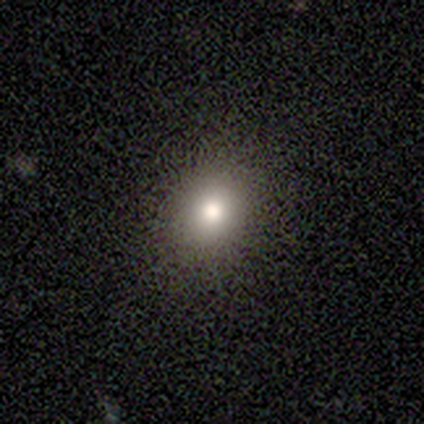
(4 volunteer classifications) Smooth or featured?
  - smooth: 75% *
  - featured or disk: 25%
  - star or artifact: 0%
How rounded?
  - round: 100% *
  - in between: 0%
  - cigar-shaped: 0%
Merging?
  - none: 100% *
  - minor disturbance: 0%
  - major disturbance: 0%
  - merger: 0%